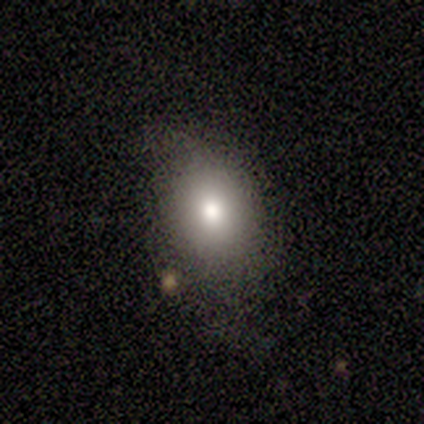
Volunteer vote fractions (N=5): Volunteers were most divided on "smooth or featured": smooth: 60%, star or artifact: 40%, featured or disk: 0%. More confident: how rounded — in between (100%); merging — none (67%).